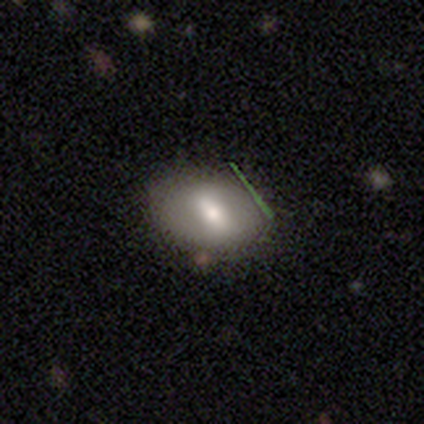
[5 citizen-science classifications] A smooth galaxy with no disk features (40%, tied with featured or disk) that is in between round and cigar-shaped (100%). Merging: minor disturbance (75%).